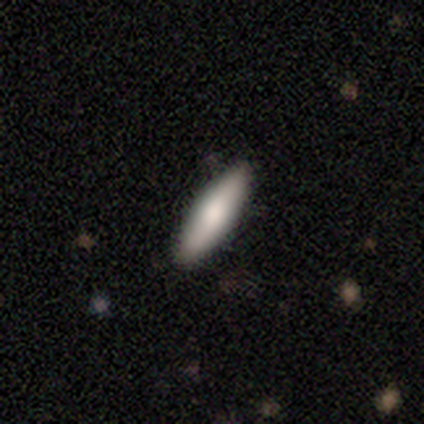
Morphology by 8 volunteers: This is likely a smooth galaxy (75%). How rounded: clearly cigar-shaped (83%). Merging: clearly none (88%).